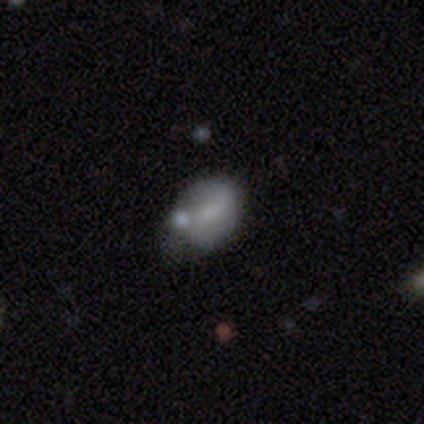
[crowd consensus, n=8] Q: Smooth or featured?
A: featured or disk (50%); runner-up: smooth (38%)
Q: Edge-on disk?
A: no (100%)
Q: Bar?
A: no (75%); runner-up: strong (25%)
Q: Spiral arms?
A: no (75%); runner-up: yes (25%)
Q: Bulge size?
A: moderate (50%); tied with: small (50%)
Q: Merging?
A: minor disturbance (71%); runner-up: none (14%)